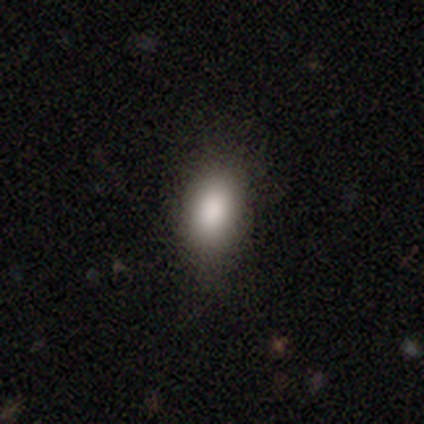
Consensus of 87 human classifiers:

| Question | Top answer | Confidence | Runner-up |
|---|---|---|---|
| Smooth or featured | smooth | 91% | star or artifact (7%) |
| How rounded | in between | 82% | round (13%) |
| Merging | none | 81% | minor disturbance (15%) |